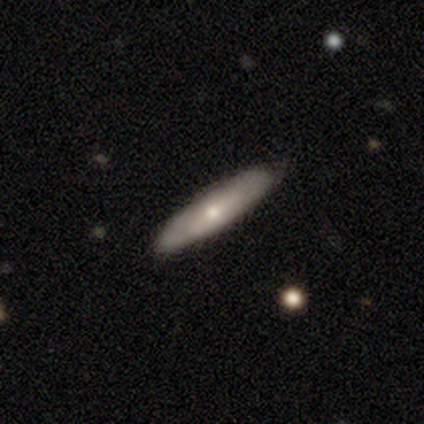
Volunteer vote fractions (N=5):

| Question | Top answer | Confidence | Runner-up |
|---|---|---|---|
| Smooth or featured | smooth | 60% | featured or disk (40%) |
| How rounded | in between | 67% | cigar-shaped (33%) |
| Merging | none | 80% | minor disturbance (20%) |